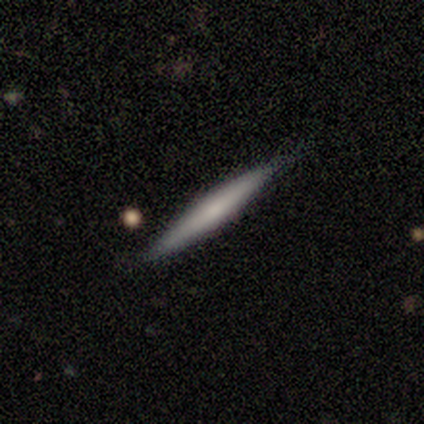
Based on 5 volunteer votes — Smooth or featured? featured or disk (60%)
Edge-on disk? yes (100%)
Edge-on bulge? rounded (67%)
Merging? none (80%)